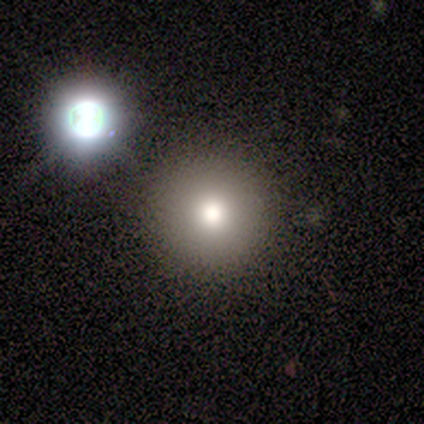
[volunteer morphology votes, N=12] This appears to be a smooth galaxy with no disk features (67%) that is round (75%). Merging: none (80%).